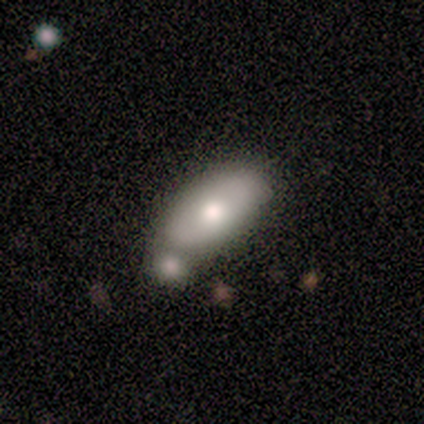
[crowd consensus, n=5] Smooth or featured? 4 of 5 (80%) said smooth. How rounded? 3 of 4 (75%) said in between. Merging? 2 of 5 (40%) said none.